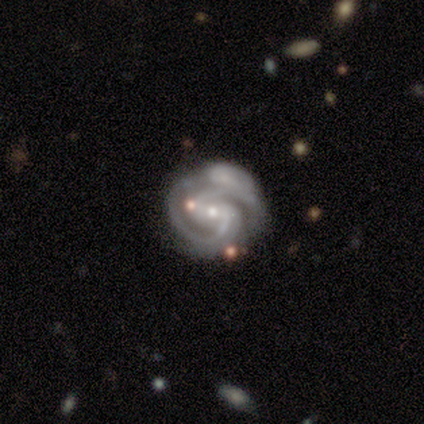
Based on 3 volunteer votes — Overall: featured or disk (100%). Edge-on disk: no (100%). Bar: no (100%). Spiral arms: yes (100%). Spiral arm count: 2 (67%; 1 33%). Spiral winding: medium (67%; tight 33%). Bulge size: small (67%; moderate 33%). Merging: none (33%, tied with minor disturbance and merger).